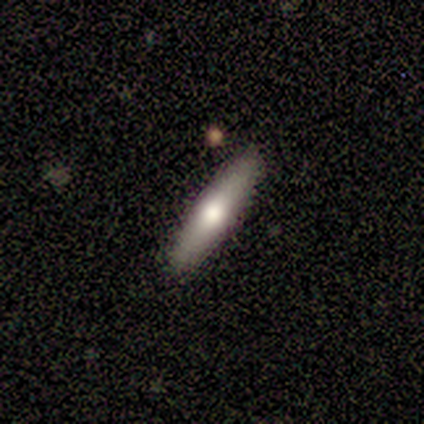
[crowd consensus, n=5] Volunteers were most divided on "smooth or featured": smooth: 80%, featured or disk: 20%, star or artifact: 0%. More confident: how rounded — cigar-shaped (100%); merging — none (100%).